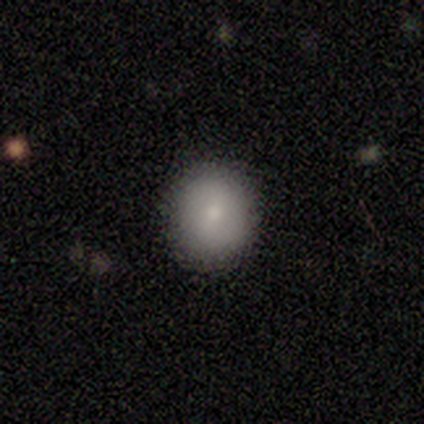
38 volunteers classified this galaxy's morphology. Volunteers were most divided on "smooth or featured": smooth: 79%, featured or disk: 11%, star or artifact: 11%. More confident: merging — none (94%); how rounded — round (90%).